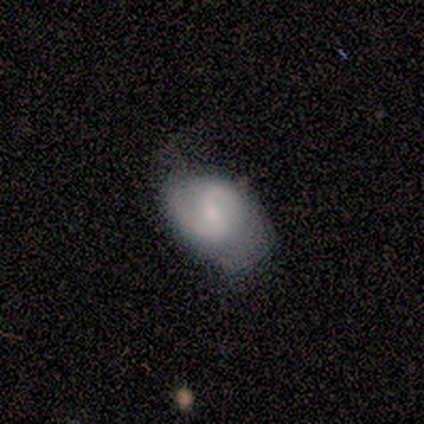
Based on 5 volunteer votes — Smooth or featured?
  - featured or disk: 80% *
  - smooth: 20%
  - star or artifact: 0%
Edge-on disk?
  - no: 100% *
  - yes: 0%
Bar?
  - weak: 75% *
  - no: 25%
  - strong: 0%
Spiral arms?
  - yes: 100% *
  - no: 0%
Spiral winding?
  - medium: 50% * (tied)
  - loose: 50% * (tied)
  - tight: 0%
Spiral arm count?
  - 2: 100% *
  - 1: 0%
  - 3: 0%
  - 4: 0%
  - more than 4: 0%
  - can't tell: 0%
Bulge size?
  - moderate: 75% *
  - small: 25%
  - dominant: 0%
  - large: 0%
  - none: 0%
Merging?
  - none: 60% *
  - minor disturbance: 40%
  - major disturbance: 0%
  - merger: 0%